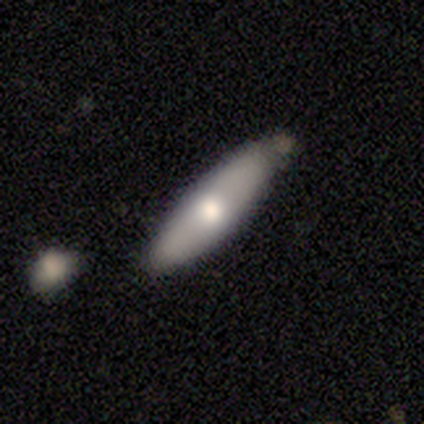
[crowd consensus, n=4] A smooth galaxy with no disk features (75%) that is cigar-shaped (67%). Merging: none (50%, tied with minor disturbance).